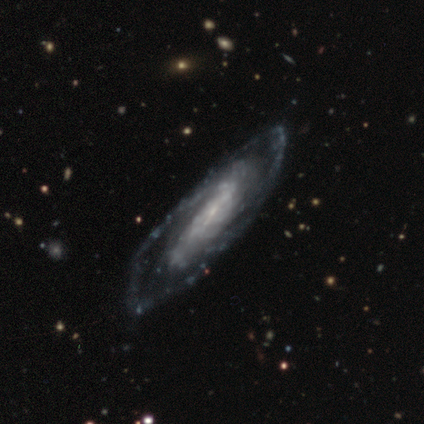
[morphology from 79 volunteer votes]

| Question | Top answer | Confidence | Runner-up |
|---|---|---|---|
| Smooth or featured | featured or disk | 90% | smooth (6%) |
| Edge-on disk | no | 87% | yes (13%) |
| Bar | no | 35% | weak (34%) |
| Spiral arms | yes | 89% | no (11%) |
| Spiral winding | medium | 44% | tight (42%) |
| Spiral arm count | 2 | 49% | can't tell (40%) |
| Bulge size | small | 58% | none (18%) |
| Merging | none | 42% | major disturbance (9%) |